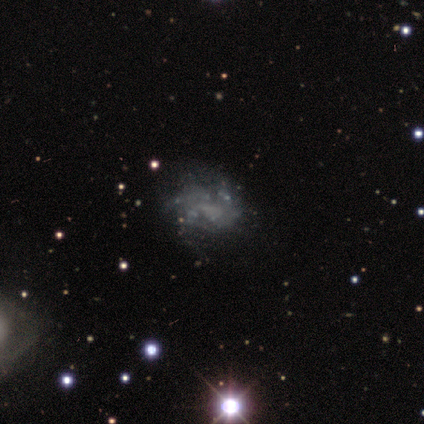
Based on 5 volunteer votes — smooth_or_featured: featured or disk (p=0.60) [alt: smooth p=0.20]
disk_edge_on: no (p=1.00)
bar: no (p=1.00)
has_spiral_arms: no (p=0.67) [alt: yes p=0.33]
bulge_size: none (p=0.67) [alt: small p=0.33]
merging: none (p=0.75) [alt: major disturbance p=0.25]